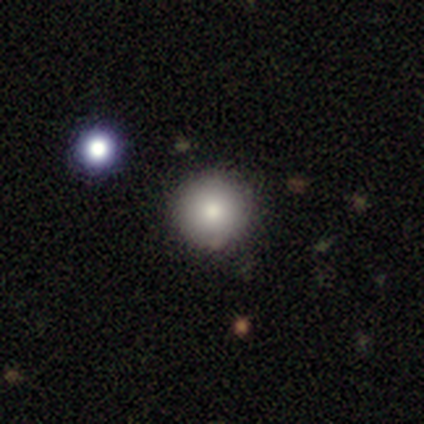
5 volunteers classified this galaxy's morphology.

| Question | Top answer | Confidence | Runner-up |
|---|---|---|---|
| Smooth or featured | smooth | 100% | — |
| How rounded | round | 100% | — |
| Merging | none | 80% | minor disturbance (20%) |